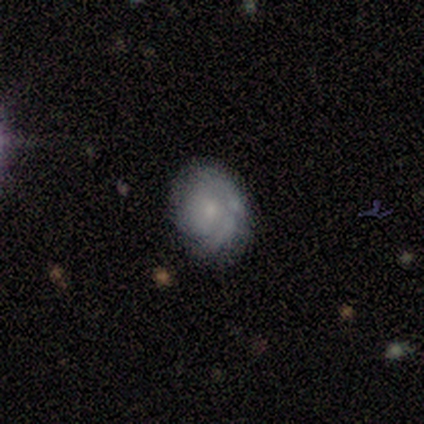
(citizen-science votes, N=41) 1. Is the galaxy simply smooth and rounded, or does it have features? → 61% featured or disk, 34% smooth, 5% star or artifact.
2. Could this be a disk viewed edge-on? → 100% no, 0% yes.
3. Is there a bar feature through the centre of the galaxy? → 92% no, 8% weak, 0% strong.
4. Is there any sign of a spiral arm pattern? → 84% yes, 16% no.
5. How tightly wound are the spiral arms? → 76% tight, 19% medium, 5% loose.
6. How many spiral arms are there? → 57% can't tell, 19% 1, 14% 2, 10% 3, 0% 4, 0% more than 4.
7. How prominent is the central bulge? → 64% moderate, 28% small, 8% none, 0% dominant, 0% large.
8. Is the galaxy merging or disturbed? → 51% none, 44% minor disturbance, 5% major disturbance, 0% merger.